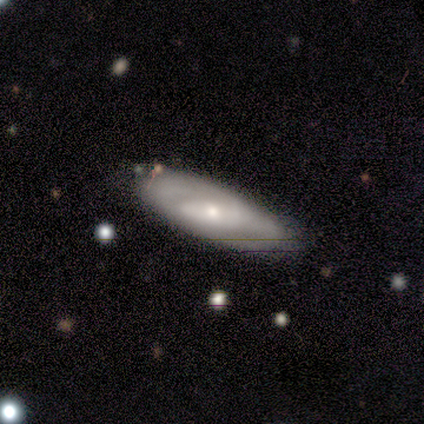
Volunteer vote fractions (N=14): Smooth or featured? 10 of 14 (71%) said featured or disk. Edge-on disk? 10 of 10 (100%) said no. Bar? 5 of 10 (50%) said weak. Spiral arms? 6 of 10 (60%) said yes. Spiral winding? 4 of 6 (67%) said tight. Spiral arm count? 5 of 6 (83%) said 2. Bulge size? 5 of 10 (50%, tied with small) said moderate. Merging? 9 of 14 (64%) said none.